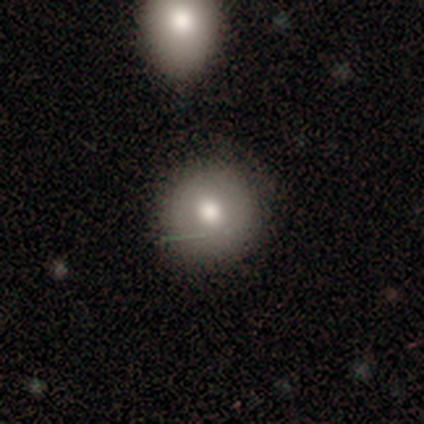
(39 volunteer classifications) This is likely a smooth galaxy (72%). How rounded: clearly round (96%). Merging: clearly none (89%).